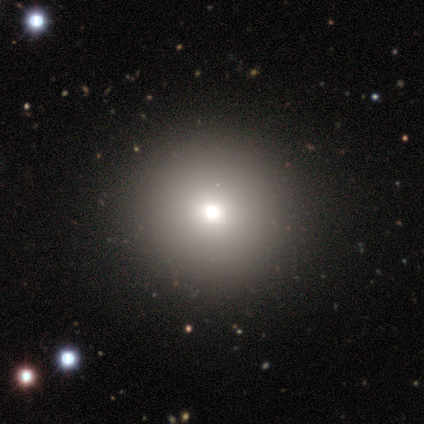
Consensus on every question: smooth or featured — smooth (100%); how rounded — round (100%); merging — none (100%).